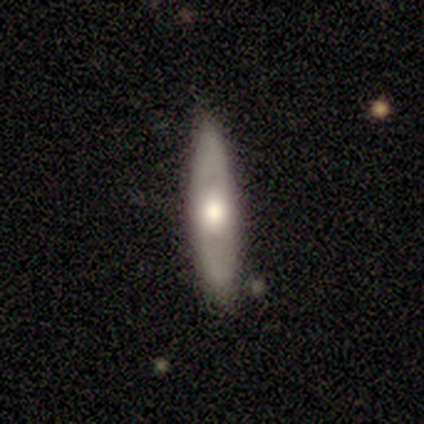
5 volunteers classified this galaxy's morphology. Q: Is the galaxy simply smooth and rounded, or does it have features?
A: featured or disk — 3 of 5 (60%).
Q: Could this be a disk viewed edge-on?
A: no — 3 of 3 (100%).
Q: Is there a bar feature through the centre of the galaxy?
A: no — 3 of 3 (100%).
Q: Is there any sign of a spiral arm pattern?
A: no — 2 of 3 (67%).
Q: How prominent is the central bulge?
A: moderate — 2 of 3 (67%).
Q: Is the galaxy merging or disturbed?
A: none — 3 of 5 (60%).